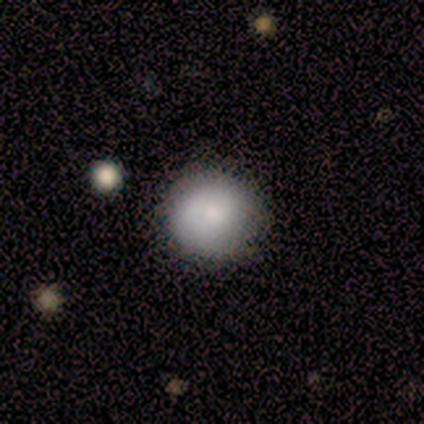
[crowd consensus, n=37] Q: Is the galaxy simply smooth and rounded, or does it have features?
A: smooth — 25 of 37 (68%).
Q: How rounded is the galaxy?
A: round — 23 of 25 (92%).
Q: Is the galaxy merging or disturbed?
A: none — 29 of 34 (85%).